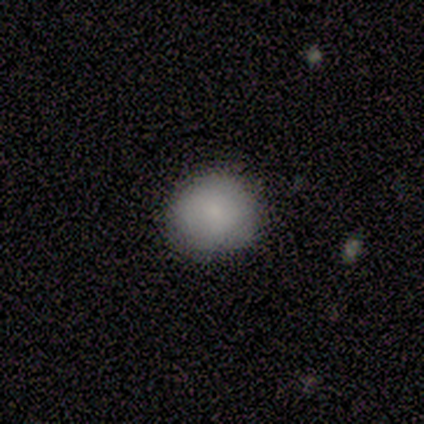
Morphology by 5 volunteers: A smooth galaxy with no disk features (60%) that is round (100%). Merging: none (67%).